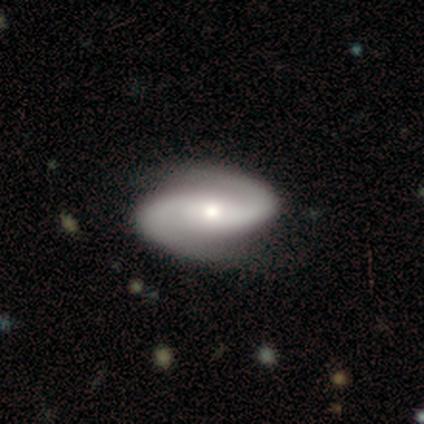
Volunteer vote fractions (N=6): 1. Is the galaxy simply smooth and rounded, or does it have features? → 100% featured or disk, 0% smooth, 0% star or artifact.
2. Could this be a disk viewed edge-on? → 83% no, 17% yes.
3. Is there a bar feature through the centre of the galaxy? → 80% no, 20% weak, 0% strong.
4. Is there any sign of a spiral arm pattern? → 100% yes, 0% no.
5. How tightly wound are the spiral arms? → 80% medium, 20% tight, 0% loose.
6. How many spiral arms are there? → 100% 2, 0% 1, 0% 3, 0% 4, 0% more than 4, 0% can't tell.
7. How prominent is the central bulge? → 60% moderate, 40% small, 0% dominant, 0% large, 0% none.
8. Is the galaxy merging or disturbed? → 100% none, 0% minor disturbance, 0% major disturbance, 0% merger.